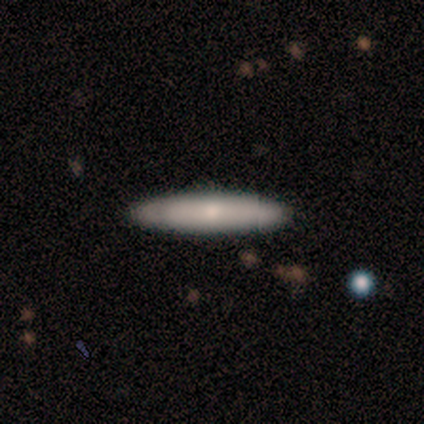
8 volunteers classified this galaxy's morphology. smooth_or_featured: smooth (p=0.88) [alt: featured or disk p=0.12]
how_rounded: cigar-shaped (p=0.71) [alt: in between p=0.29]
merging: none (p=1.00)